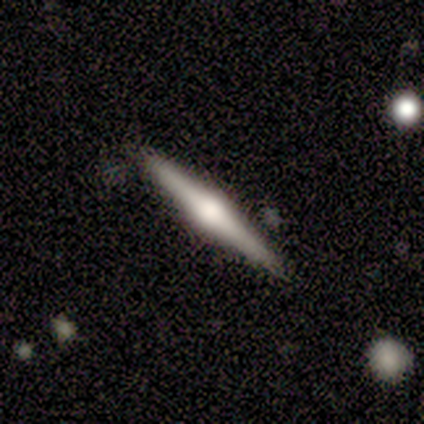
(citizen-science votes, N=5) A featured or disk galaxy (100%) viewed edge-on (100%) with a rounded central bulge (100%).

Vote fractions:
- Smooth or featured? featured or disk: 100% / smooth: 0% / star or artifact: 0%
- Edge-on disk? yes: 100% / no: 0%
- Edge-on bulge? rounded: 100% / boxy: 0% / none: 0%
- Merging? none: 80% / merger: 20% / minor disturbance: 0% / major disturbance: 0%